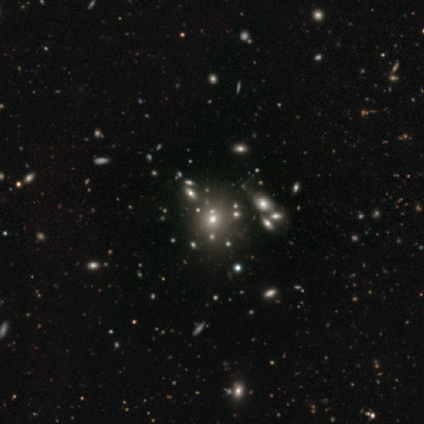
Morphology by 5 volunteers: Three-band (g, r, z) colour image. It shows a smooth galaxy with no disk features (80%) that is round (50%, tied with in between). Merging: none (50%, tied with minor disturbance).